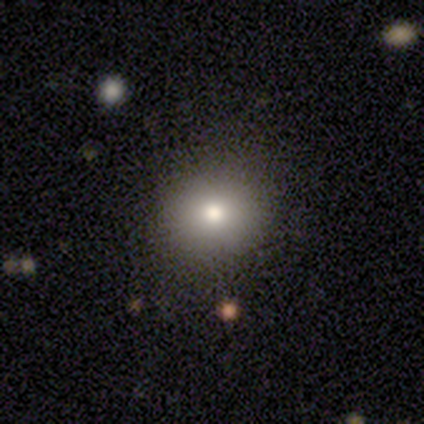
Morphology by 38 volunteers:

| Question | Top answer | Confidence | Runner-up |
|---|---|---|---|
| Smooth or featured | smooth | 79% | star or artifact (13%) |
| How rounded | round | 73% | in between (27%) |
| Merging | none | 79% | minor disturbance (9%) |